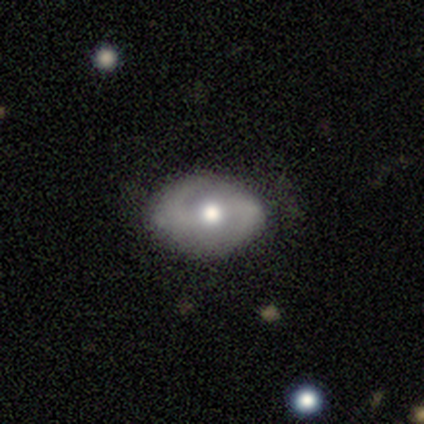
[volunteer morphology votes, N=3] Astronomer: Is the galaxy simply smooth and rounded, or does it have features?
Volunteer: featured or disk — 67%.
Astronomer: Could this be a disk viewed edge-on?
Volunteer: no — 100%.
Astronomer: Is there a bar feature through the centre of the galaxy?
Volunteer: no — 100%.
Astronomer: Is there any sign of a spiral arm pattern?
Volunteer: yes — 100%.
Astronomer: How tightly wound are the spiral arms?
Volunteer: tight — 50%, tied with medium at 50%.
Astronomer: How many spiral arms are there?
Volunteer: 2 — 100%.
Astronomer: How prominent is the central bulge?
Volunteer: moderate — 100%.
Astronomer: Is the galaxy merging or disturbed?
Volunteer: minor disturbance — 100%.